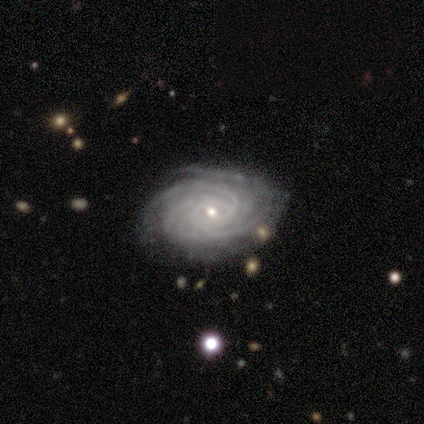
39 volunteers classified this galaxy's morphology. Smooth or featured? featured or disk (95%)
Edge-on disk? no (95%)
Bar? no (60%)
Spiral arms? yes (100%)
Spiral winding? tight (91%)
Spiral arm count? 4 (29%, tied with more than 4)
Bulge size? small (77%)
Merging? none (76%)